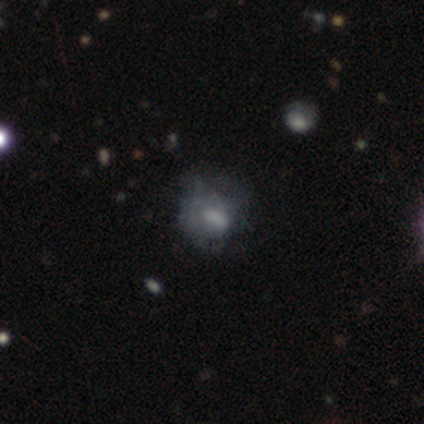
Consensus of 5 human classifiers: This is likely a featured or disk galaxy (60%). It is clearly not viewed edge-on (100%). Bar: likely weak (67%). Spiral arm pattern: likely no (67%). Central bulge: likely none (67%). Merging: clearly major disturbance (100%).